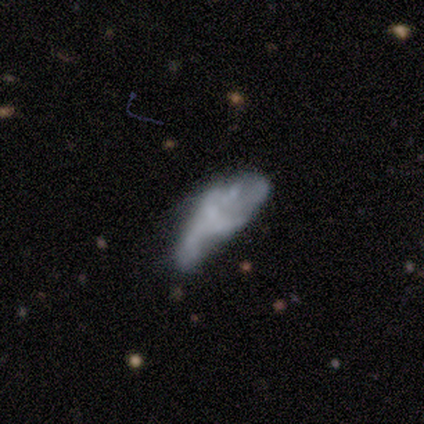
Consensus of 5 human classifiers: Smooth or featured?
  - featured or disk: 60% *
  - smooth: 20%
  - star or artifact: 20%
Edge-on disk?
  - no: 100% *
  - yes: 0%
Bar?
  - no: 67% *
  - weak: 33%
  - strong: 0%
Spiral arms?
  - no: 67% *
  - yes: 33%
Bulge size?
  - none: 67% *
  - small: 33%
  - dominant: 0%
  - large: 0%
  - moderate: 0%
Merging?
  - minor disturbance: 50% *
  - none: 25%
  - major disturbance: 25%
  - merger: 0%